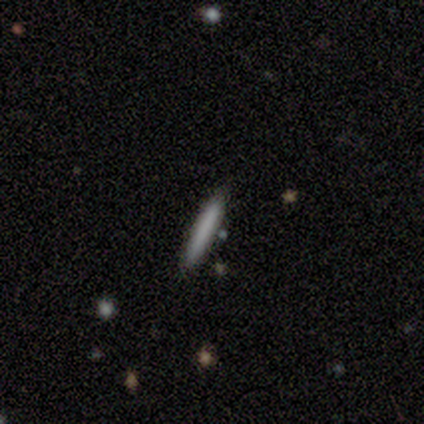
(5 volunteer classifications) Smooth or featured? smooth (80%)
How rounded? cigar-shaped (100%)
Merging? none (100%)